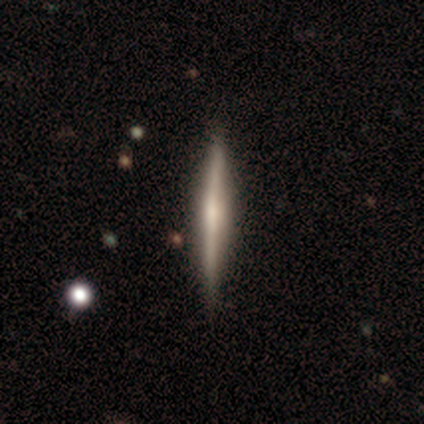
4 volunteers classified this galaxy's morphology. Smooth or featured? featured or disk (100%)
Edge-on disk? yes (100%)
Edge-on bulge? none (75%)
Merging? none (100%)